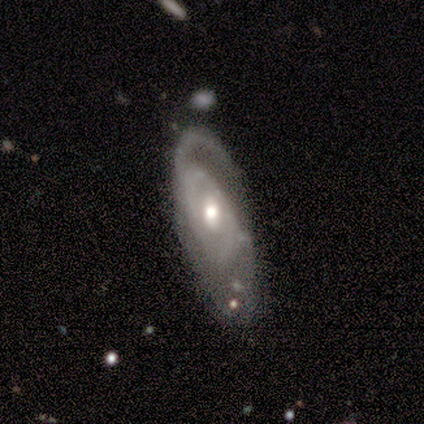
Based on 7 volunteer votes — A featured or disk galaxy (86%) with a weak bar (67%), 2 (40%) medium (80%) spiral arms (83%) and a moderate central bulge (83%).

Vote fractions:
- Smooth or featured? featured or disk: 86% / star or artifact: 14% / smooth: 0%
- Edge-on disk? no: 100% / yes: 0%
- Bar? weak: 67% / strong: 17% / no: 17%
- Spiral arms? yes: 83% / no: 17%
- Spiral winding? medium: 80% / loose: 20% / tight: 0%
- Spiral arm count? 2: 40% / 1: 20% / 3: 20% / can't tell: 20% / 4: 0% / more than 4: 0%
- Bulge size? moderate: 83% / small: 17% / dominant: 0% / large: 0% / none: 0%
- Merging? none: 67% / minor disturbance: 33% / major disturbance: 0% / merger: 0%